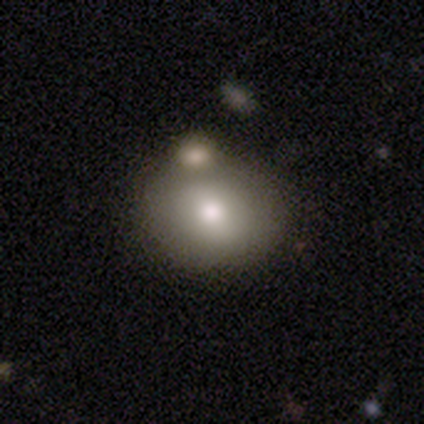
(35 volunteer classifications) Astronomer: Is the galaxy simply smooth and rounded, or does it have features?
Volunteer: smooth — 77%.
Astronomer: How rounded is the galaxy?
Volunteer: round — 67%.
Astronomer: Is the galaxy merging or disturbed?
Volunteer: merger — 58%.